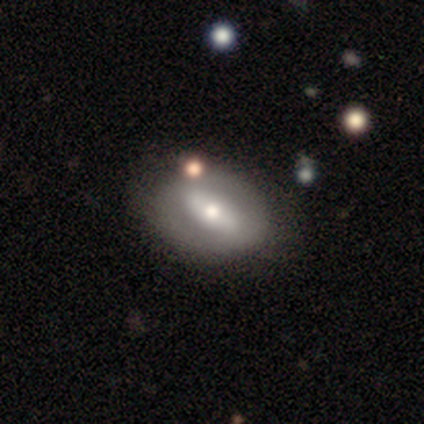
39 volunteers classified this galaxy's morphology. Smooth or featured: featured or disk — 64% (smooth — 28%)
Edge-on disk: no — 68% (yes — 32%)
Bar: strong — 47% (weak — 29%)
Spiral arms: no — 71% (yes — 29%)
Bulge size: moderate — 71% (small — 24%)
Merging: none — 81% (minor disturbance — 8%)